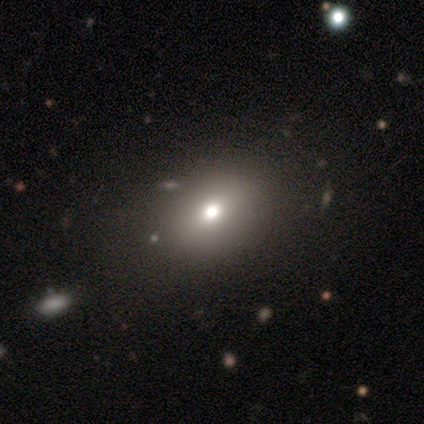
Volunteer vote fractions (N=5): Volunteers were most divided on "how rounded": in between: 75%, cigar-shaped: 25%, round: 0%. More confident: smooth or featured — smooth (80%); merging — none (75%).